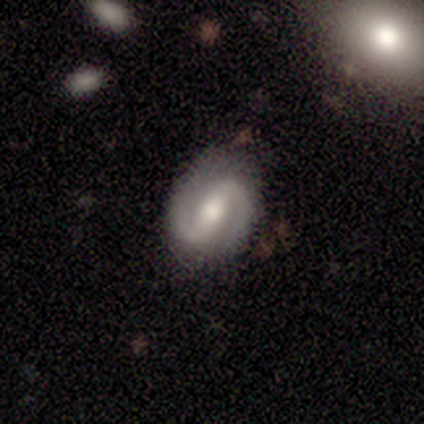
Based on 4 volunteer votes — Smooth or featured? featured or disk (75%)
Edge-on disk? no (100%)
Bar? strong (67%)
Spiral arms? yes (100%)
Spiral winding? tight (67%)
Spiral arm count? 2 (100%)
Bulge size? moderate (100%)
Merging? none (100%)